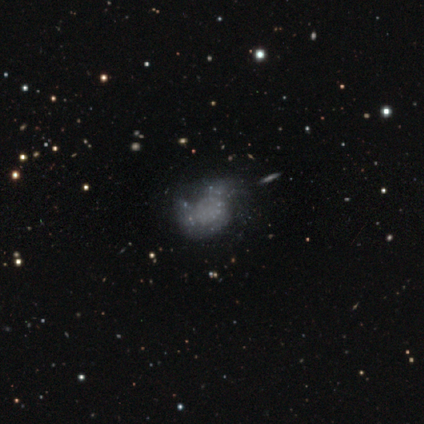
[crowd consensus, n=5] Morphology: type=smooth (40%, tied with featured or disk); roundness=in between (100%); merging=minor disturbance (50%).